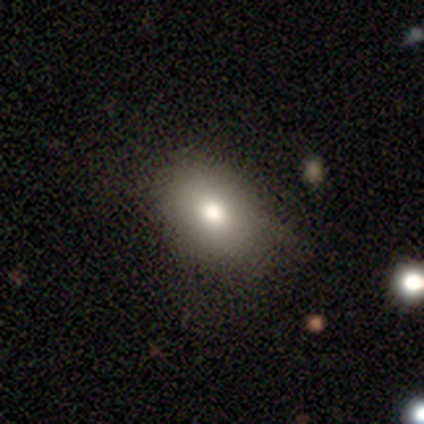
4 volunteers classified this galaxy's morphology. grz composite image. It shows a smooth galaxy with no disk features (50%) that is round (50%, tied with in between). Merging: none (100%).